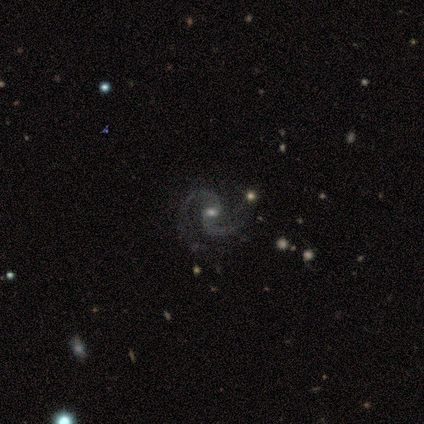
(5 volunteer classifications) Volunteers were most divided on "spiral winding" (2-way tie): medium: 40%, loose: 40%, tight: 20%; "merging" (2-way tie): none: 40%, minor disturbance: 40%, merger: 20%, major disturbance: 0%. More confident: smooth or featured — featured or disk (100%); edge-on disk — no (100%); spiral arms — yes (100%); spiral arm count — 2 (100%); bar — no (80%); bulge size — moderate (60%).